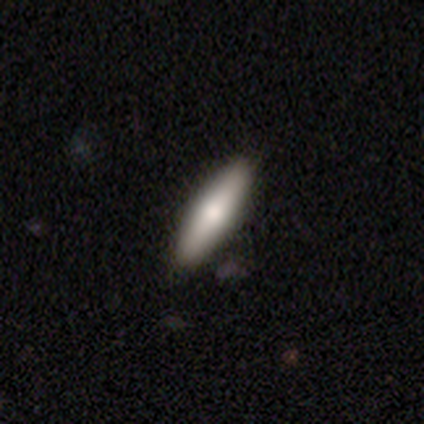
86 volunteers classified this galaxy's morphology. Q: Smooth or featured?
A: smooth (56%); runner-up: featured or disk (34%)
Q: How rounded?
A: cigar-shaped (75%); runner-up: in between (25%)
Q: Merging?
A: none (86%); runner-up: minor disturbance (13%)